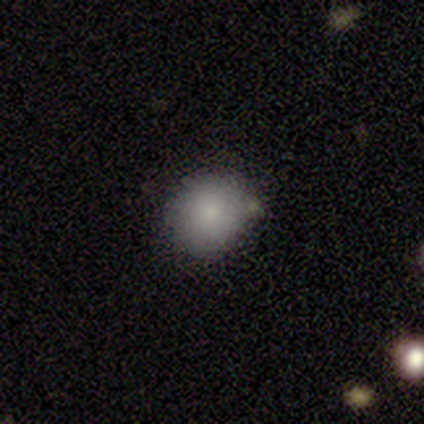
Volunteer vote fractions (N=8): Smooth or featured? smooth (75%)
How rounded? round (100%)
Merging? none (57%)